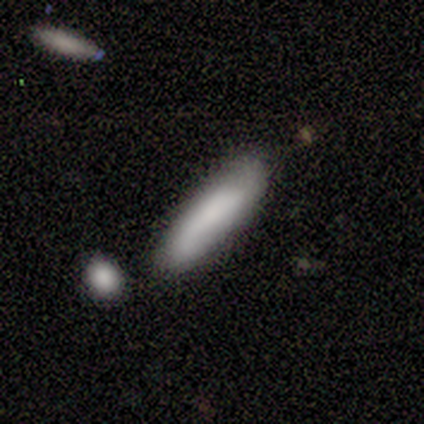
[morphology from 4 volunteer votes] Overall: featured or disk (75%). Edge-on disk: no (67%; yes 33%). Bar: no (100%). Spiral arms: yes (100%). Spiral arm count: 2 (100%). Spiral winding: medium (50%, tied with loose). Bulge size: large (50%, tied with none). Merging: minor disturbance (67%; major disturbance 33%).